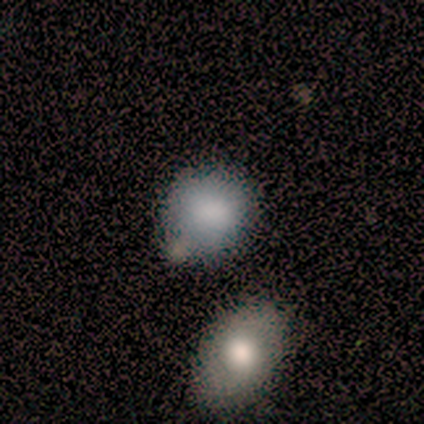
A smooth galaxy with no disk features (80%) that is round (75%). Merging: none (50%).